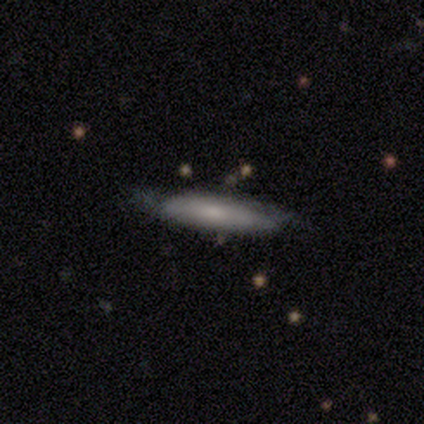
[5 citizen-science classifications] smooth-or-featured: smooth: 80% | star or artifact: 20% | featured or disk: 0%
  how-rounded: in between: 50% (tied) | cigar-shaped: 50% (tied) | round: 0%
  merging: minor disturbance: 100% | none: 0% | major disturbance: 0% | merger: 0%